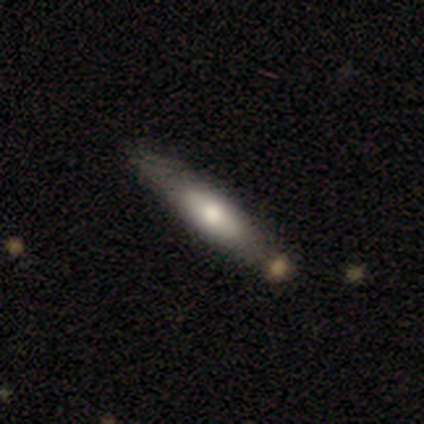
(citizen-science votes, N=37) Smooth or featured: featured or disk — 49% (smooth — 46%)
Edge-on disk: yes — 67% (no — 33%)
Edge-on bulge: rounded — 50% (none — 33%)
Merging: none — 74% (minor disturbance — 11%)